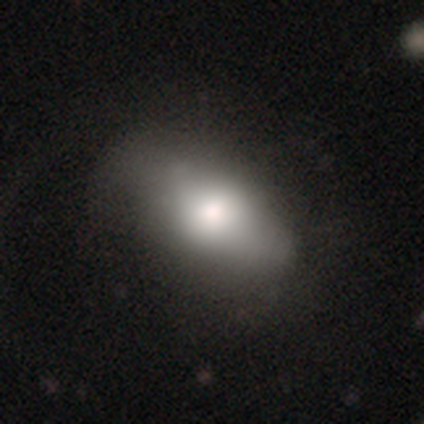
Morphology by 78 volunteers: This is likely a smooth galaxy (63%). How rounded: clearly in between (90%). Merging: marginally none (23%).